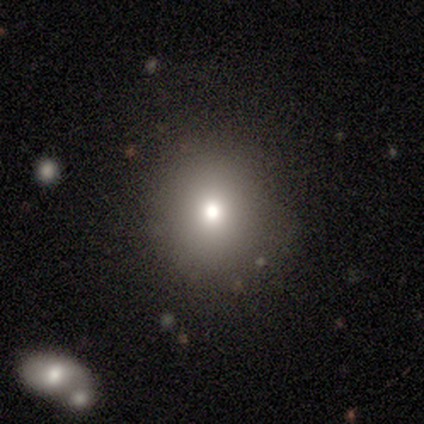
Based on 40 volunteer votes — This is likely a smooth galaxy (70%). How rounded: clearly round (93%). Merging: clearly none (82%).